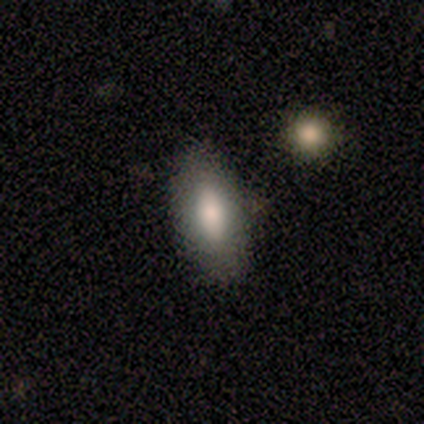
smooth 60%, featured or disk 40%, star or artifact 0%. Down the decision tree: how rounded — in between (67%); merging — none (100%).